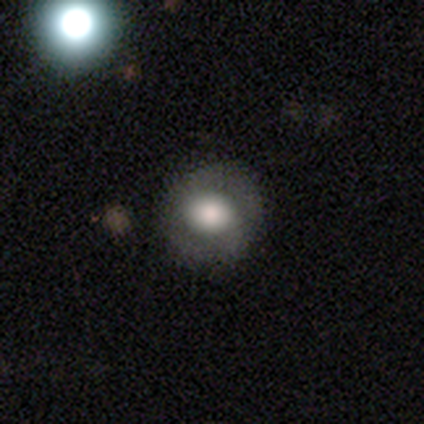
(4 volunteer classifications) Smooth or featured? smooth (50%, tied with featured or disk)
How rounded? round (100%)
Merging? none (75%)